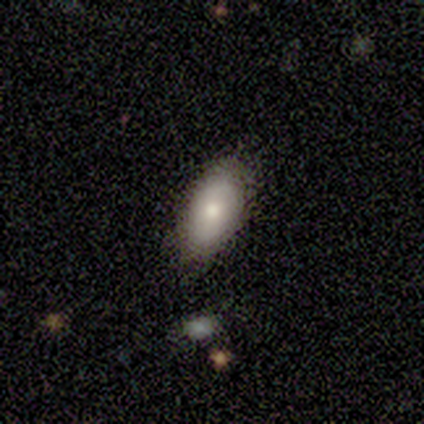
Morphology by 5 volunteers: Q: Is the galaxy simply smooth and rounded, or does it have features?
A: smooth — 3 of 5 (60%).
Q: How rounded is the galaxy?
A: in between — 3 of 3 (100%).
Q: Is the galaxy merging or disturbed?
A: none — 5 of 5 (100%).